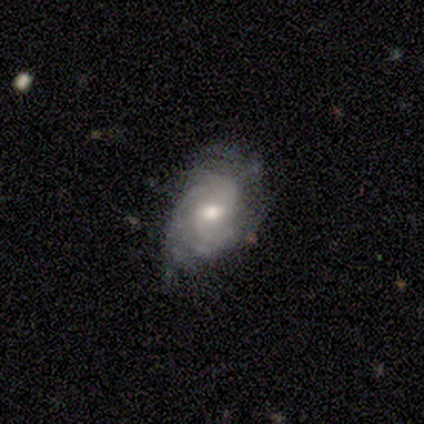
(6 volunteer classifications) Smooth or featured?
  - featured or disk: 83% *
  - smooth: 17%
  - star or artifact: 0%
Edge-on disk?
  - no: 80% *
  - yes: 20%
Bar?
  - weak: 50% * (tied)
  - no: 50% * (tied)
  - strong: 0%
Spiral arms?
  - yes: 75% *
  - no: 25%
Spiral winding?
  - medium: 67% *
  - tight: 33%
  - loose: 0%
Spiral arm count?
  - 2: 67% *
  - can't tell: 33%
  - 1: 0%
  - 3: 0%
  - 4: 0%
  - more than 4: 0%
Bulge size?
  - moderate: 100% *
  - dominant: 0%
  - large: 0%
  - small: 0%
  - none: 0%
Merging?
  - none: 50% *
  - minor disturbance: 33%
  - major disturbance: 17%
  - merger: 0%